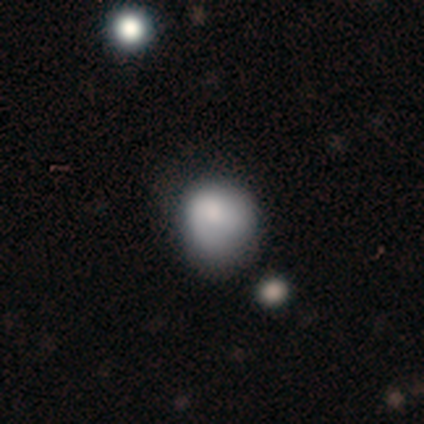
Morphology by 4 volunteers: smooth-or-featured: smooth: 100% | featured or disk: 0% | star or artifact: 0%
  how-rounded: round: 100% | in between: 0% | cigar-shaped: 0%
  merging: none: 50% | minor disturbance: 25% | major disturbance: 25% | merger: 0%